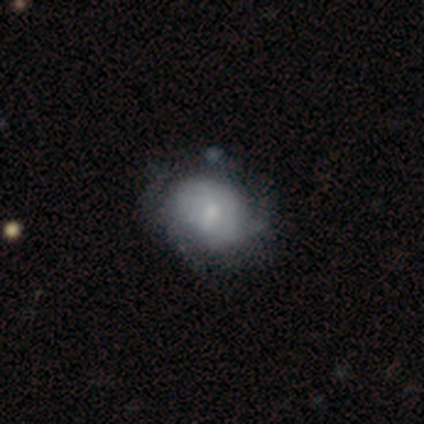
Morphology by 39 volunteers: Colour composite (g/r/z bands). It shows a featured or disk galaxy (49%) with no bar (79%), tight (73%) spiral arms (58%) and a small central bulge (68%). Merging: none (46%).